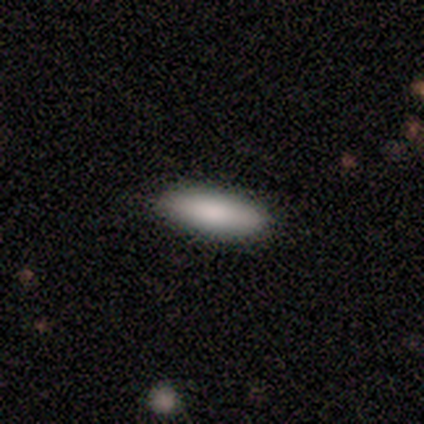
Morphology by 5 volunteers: This is clearly a smooth galaxy (100%). How rounded: likely cigar-shaped (60%). Merging: clearly none (100%).